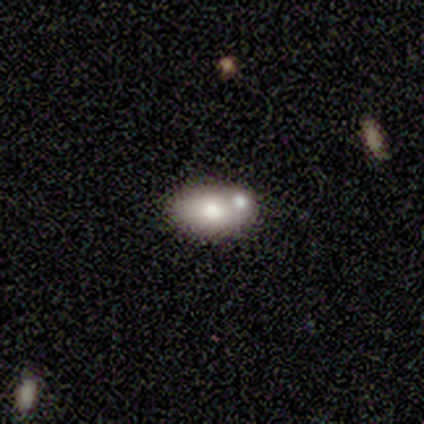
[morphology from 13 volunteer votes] Smooth or featured? 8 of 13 (62%) said smooth. How rounded? 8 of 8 (100%) said in between. Merging? 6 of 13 (46%) said none.